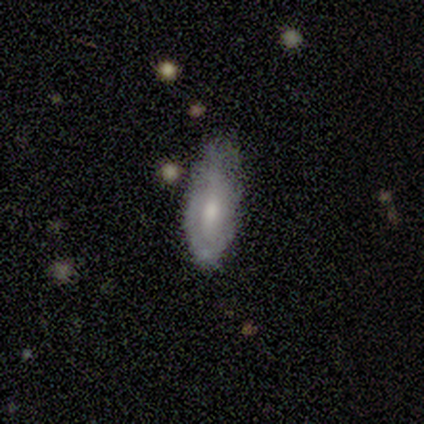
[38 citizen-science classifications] Morphology: type=featured or disk (61%); edge-on=no (96%); bar=no (68%); spiral arms=no (59%); bulge=moderate (55%); merging=minor disturbance (57%).